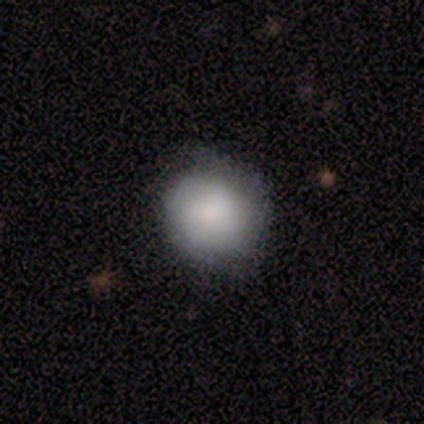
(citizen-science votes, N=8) Smooth or featured: smooth — 75% (featured or disk — 12%)
How rounded: round — 67% (in between — 33%)
Merging: none — 57% (minor disturbance — 29%)